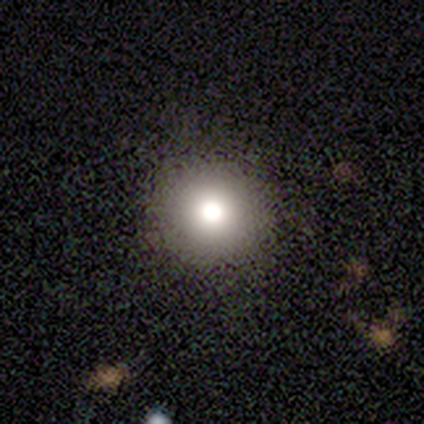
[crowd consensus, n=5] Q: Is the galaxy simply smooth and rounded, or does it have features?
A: smooth — 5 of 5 (100%).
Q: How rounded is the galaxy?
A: round — 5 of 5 (100%).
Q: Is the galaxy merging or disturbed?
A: none — 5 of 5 (100%).